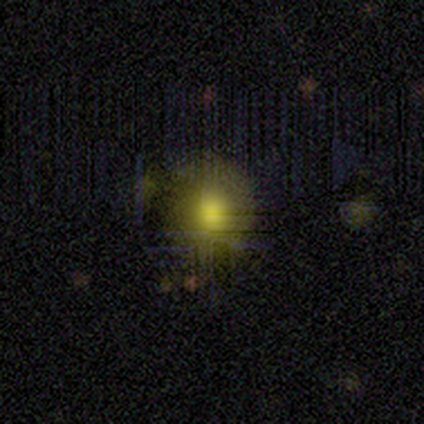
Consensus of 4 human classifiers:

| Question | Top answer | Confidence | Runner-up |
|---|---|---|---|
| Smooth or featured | smooth | 75% | featured or disk (25%) |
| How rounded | round | 100% | — |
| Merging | none | 75% | minor disturbance (25%) |